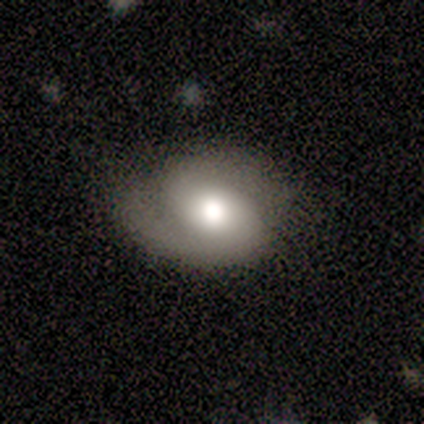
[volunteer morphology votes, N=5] This is likely a featured or disk galaxy (60%). It is clearly not viewed edge-on (100%). Bar: clearly no (100%). Spiral arm pattern: clearly yes (100%). Spiral arm count: clearly 2 (100%). Spiral winding: likely tight (67%). Central bulge: marginally dominant (33%, tied with large and moderate). Merging: clearly none (80%).